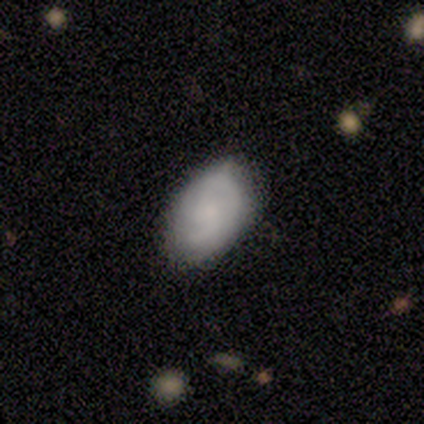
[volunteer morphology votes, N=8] Overall: featured or disk (62%; smooth 25%). Edge-on disk: no (100%). Bar: no (60%; weak 40%). Spiral arms: yes (80%). Spiral arm count: can't tell (50%; 1 25%). Spiral winding: medium (75%). Bulge size: none (60%; moderate 20%). Merging: none (71%).